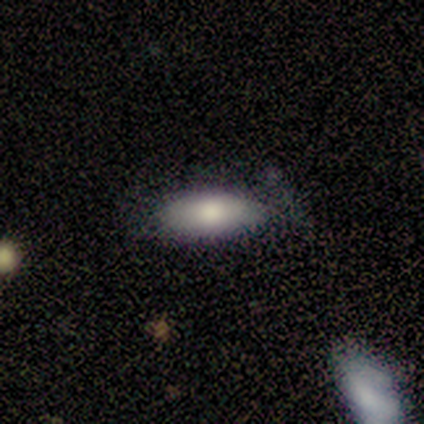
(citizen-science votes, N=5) Morphology: type=smooth (80%); roundness=in between (75%); merging=minor disturbance (60%).